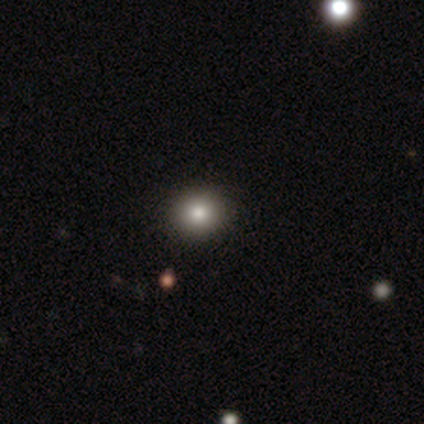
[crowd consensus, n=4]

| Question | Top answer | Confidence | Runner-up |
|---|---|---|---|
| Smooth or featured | smooth | 50% | tied: star or artifact (50%) |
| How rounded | round | 100% | — |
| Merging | none | 100% | — |